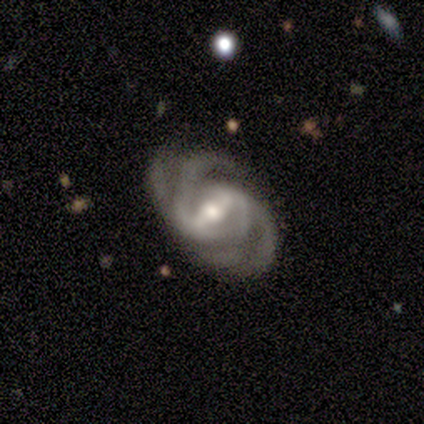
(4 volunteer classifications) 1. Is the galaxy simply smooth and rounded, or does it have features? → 100% featured or disk, 0% smooth, 0% star or artifact.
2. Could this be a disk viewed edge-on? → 100% no, 0% yes.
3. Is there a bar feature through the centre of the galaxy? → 50% strong (tied), 50% weak (tied), 0% no.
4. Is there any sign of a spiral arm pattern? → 100% yes, 0% no.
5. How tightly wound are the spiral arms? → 50% loose, 25% tight, 25% medium.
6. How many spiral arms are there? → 75% 2, 25% 3, 0% 1, 0% 4, 0% more than 4, 0% can't tell.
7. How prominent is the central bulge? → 50% moderate, 25% large, 25% small, 0% dominant, 0% none.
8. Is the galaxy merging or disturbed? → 100% none, 0% minor disturbance, 0% major disturbance, 0% merger.